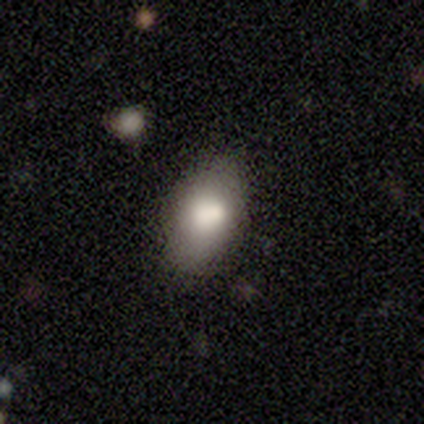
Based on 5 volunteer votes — smooth 80%, star or artifact 20%, featured or disk 0%. Down the decision tree: how rounded — in between (100%); merging — none (50%, tied with minor disturbance).